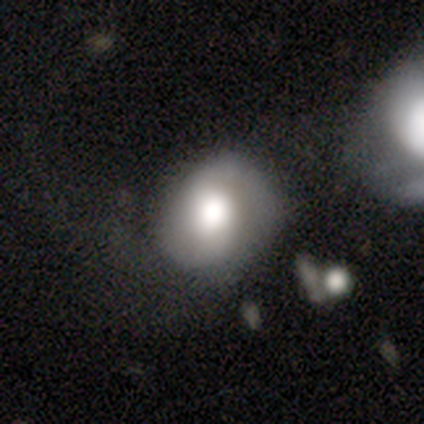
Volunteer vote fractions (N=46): Smooth or featured: smooth — 59% (featured or disk — 39%)
How rounded: round — 59% (in between — 41%)
Merging: none — 53% (minor disturbance — 24%)